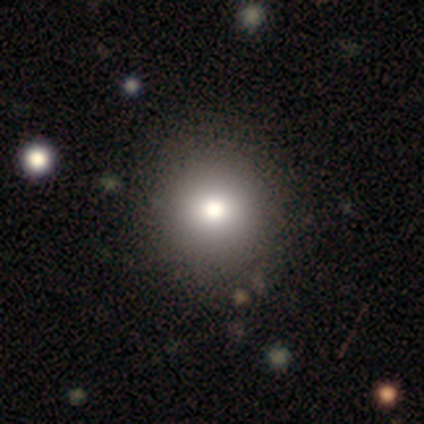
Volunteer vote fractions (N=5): Smooth or featured? smooth (80%)
How rounded? round (100%)
Merging? none (75%)